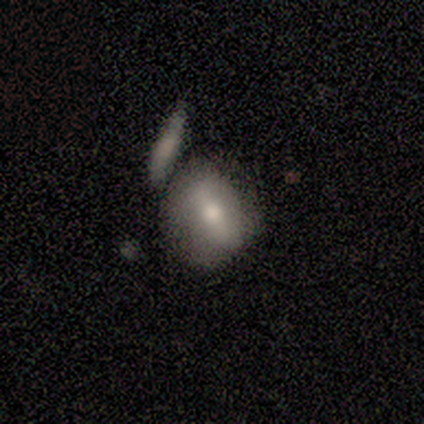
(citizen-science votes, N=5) A smooth galaxy with no disk features (60%) that is round (67%). Merging: minor disturbance (60%).